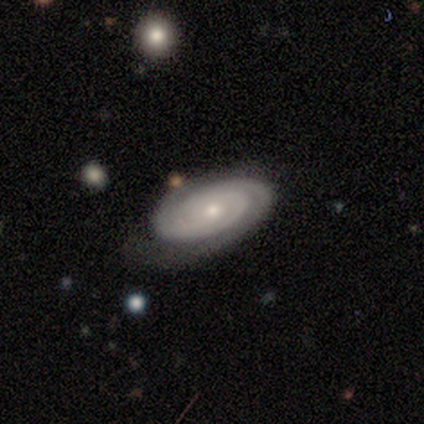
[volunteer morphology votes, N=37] Smooth or featured?
  - featured or disk: 76% *
  - smooth: 22%
  - star or artifact: 3%
Edge-on disk?
  - no: 93% *
  - yes: 7%
Bar?
  - no: 73% *
  - weak: 27%
  - strong: 0%
Spiral arms?
  - yes: 96% *
  - no: 4%
Spiral winding?
  - tight: 68% *
  - medium: 24%
  - loose: 8%
Spiral arm count?
  - 2: 52% *
  - can't tell: 28%
  - 4: 12%
  - 3: 8%
  - 1: 0%
  - more than 4: 0%
Bulge size?
  - small: 77% *
  - moderate: 23%
  - dominant: 0%
  - large: 0%
  - none: 0%
Merging?
  - none: 64% *
  - minor disturbance: 19%
  - major disturbance: 17%
  - merger: 0%